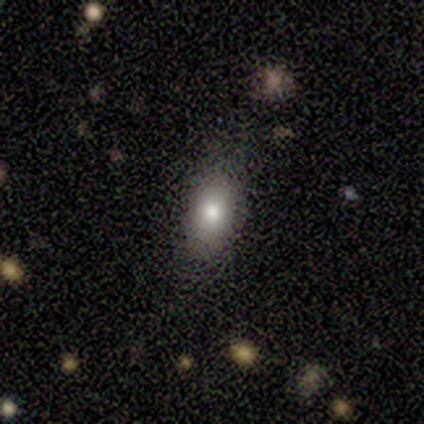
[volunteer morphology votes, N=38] Q: Smooth or featured?
A: smooth (74%); runner-up: featured or disk (13%)
Q: How rounded?
A: in between (82%); runner-up: round (11%)
Q: Merging?
A: none (79%); runner-up: minor disturbance (18%)